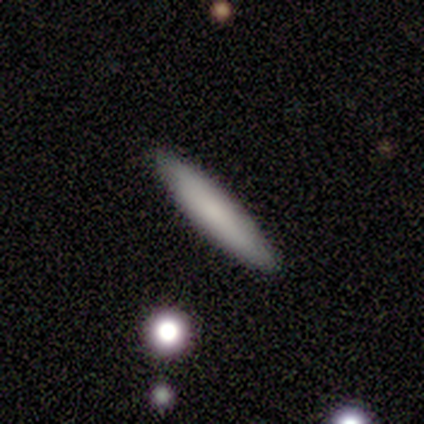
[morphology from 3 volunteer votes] Volunteers were most divided on "merging": none: 67%, merger: 33%, minor disturbance: 0%, major disturbance: 0%. More confident: smooth or featured — smooth (100%); how rounded — cigar-shaped (100%).